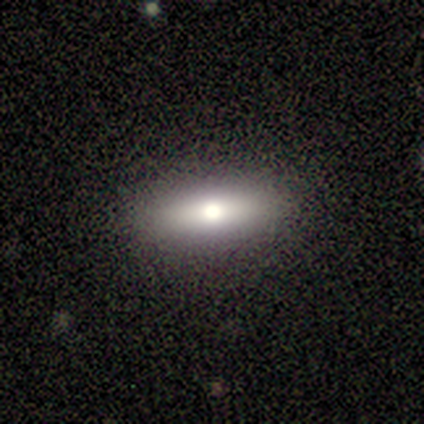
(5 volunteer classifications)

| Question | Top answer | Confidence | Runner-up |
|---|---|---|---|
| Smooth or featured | featured or disk | 60% | smooth (40%) |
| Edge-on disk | yes | 100% | — |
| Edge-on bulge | rounded | 67% | boxy (33%) |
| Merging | none | 100% | — |